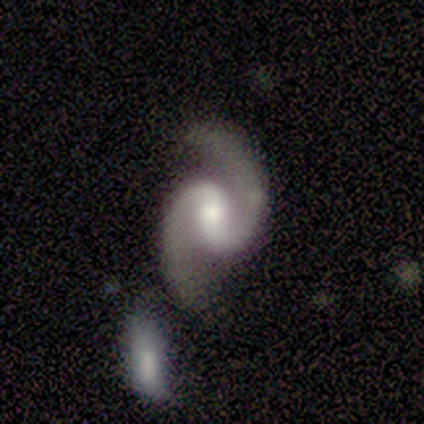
smooth-or-featured: smooth: 33% (tied) | featured or disk: 33% (tied) | star or artifact: 33% (tied)
  how-rounded: in between: 100% | round: 0% | cigar-shaped: 0%
  merging: none: 100% | minor disturbance: 0% | major disturbance: 0% | merger: 0%